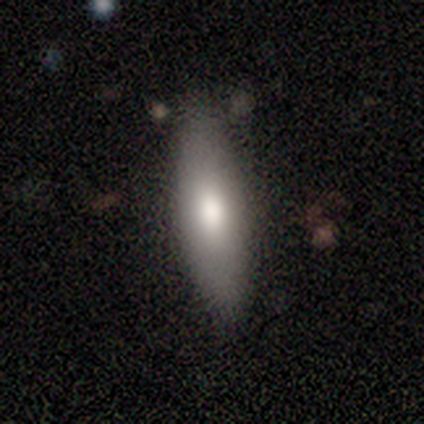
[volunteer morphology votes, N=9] smooth 100%, featured or disk 0%, star or artifact 0%. Down the decision tree: how rounded — in between (44%, tied with cigar-shaped); merging — none (78%).